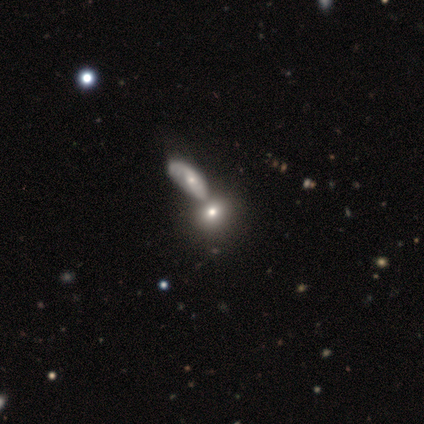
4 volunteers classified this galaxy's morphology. smooth 75%, star or artifact 25%, featured or disk 0%. Down the decision tree: how rounded — round (100%); merging — none (67%).